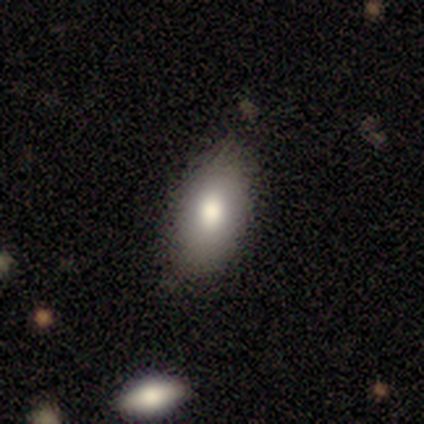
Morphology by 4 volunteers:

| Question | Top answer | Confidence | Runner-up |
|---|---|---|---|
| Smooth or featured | smooth | 75% | star or artifact (25%) |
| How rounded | in between | 100% | — |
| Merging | none | 100% | — |